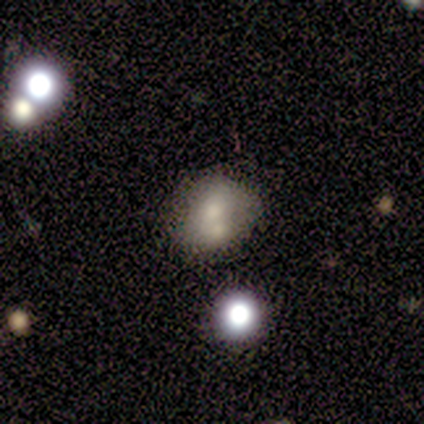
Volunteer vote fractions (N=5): Smooth or featured?
  - smooth: 40% * (tied)
  - featured or disk: 40% * (tied)
  - star or artifact: 20%
How rounded?
  - in between: 100% *
  - round: 0%
  - cigar-shaped: 0%
Merging?
  - merger: 75% *
  - none: 25%
  - minor disturbance: 0%
  - major disturbance: 0%